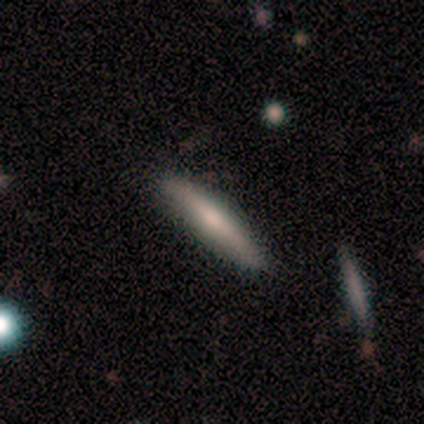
smooth_or_featured: featured or disk (p=0.60) [alt: smooth p=0.40]
disk_edge_on: yes (p=1.00)
edge_on_bulge: rounded (p=0.67) [alt: none p=0.33]
merging: none (p=0.80) [alt: minor disturbance p=0.20]